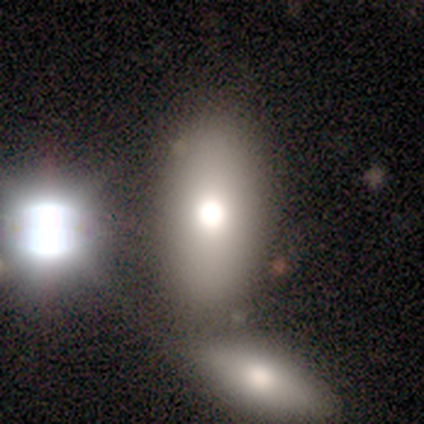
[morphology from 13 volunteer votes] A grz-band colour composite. It shows a smooth galaxy with no disk features (77%) that is in between round and cigar-shaped (80%). Merging: none (64%).